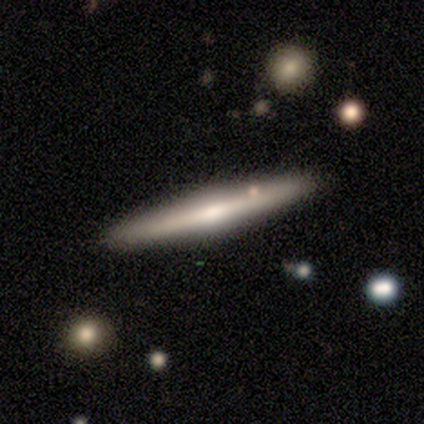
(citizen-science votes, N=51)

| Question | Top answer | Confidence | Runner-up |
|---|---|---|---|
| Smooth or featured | featured or disk | 69% | smooth (29%) |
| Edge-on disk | yes | 100% | — |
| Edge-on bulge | rounded | 83% | boxy (11%) |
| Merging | none | 94% | minor disturbance (6%) |